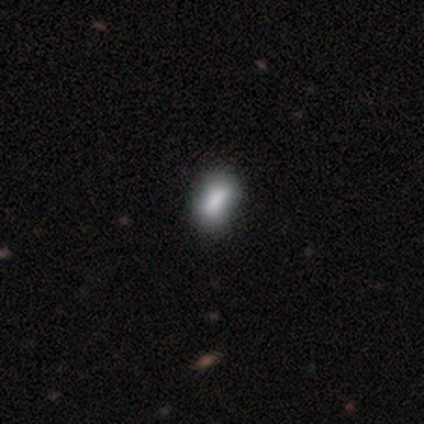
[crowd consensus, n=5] Smooth or featured?
  - smooth: 80% *
  - star or artifact: 20%
  - featured or disk: 0%
How rounded?
  - in between: 75% *
  - cigar-shaped: 25%
  - round: 0%
Merging?
  - none: 75% *
  - merger: 25%
  - minor disturbance: 0%
  - major disturbance: 0%